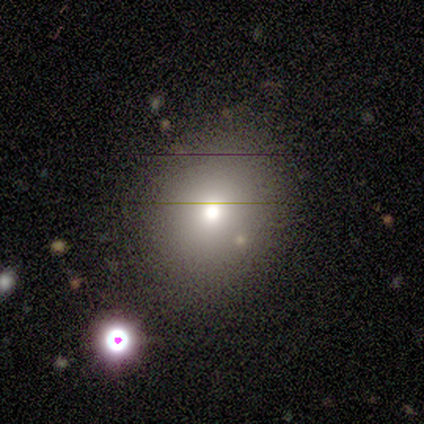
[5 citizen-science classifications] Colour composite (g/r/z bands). It shows a smooth galaxy with no disk features (60%) that is round (100%). Merging: none (80%).